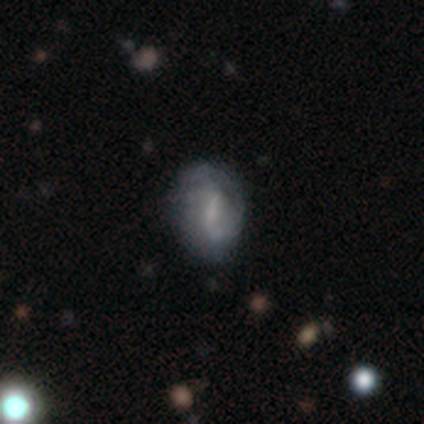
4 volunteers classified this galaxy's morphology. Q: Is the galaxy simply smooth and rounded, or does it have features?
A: featured or disk — 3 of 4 (75%).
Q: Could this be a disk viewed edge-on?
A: no — 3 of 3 (100%).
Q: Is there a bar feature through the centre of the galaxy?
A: no — 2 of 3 (67%).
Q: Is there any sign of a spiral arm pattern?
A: yes — 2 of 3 (67%).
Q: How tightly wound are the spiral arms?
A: tight — 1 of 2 (50%, tied with loose).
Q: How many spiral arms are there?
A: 1 — 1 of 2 (50%, tied with 2).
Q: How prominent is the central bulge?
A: small — 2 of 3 (67%).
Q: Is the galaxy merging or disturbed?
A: minor disturbance — 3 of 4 (75%).